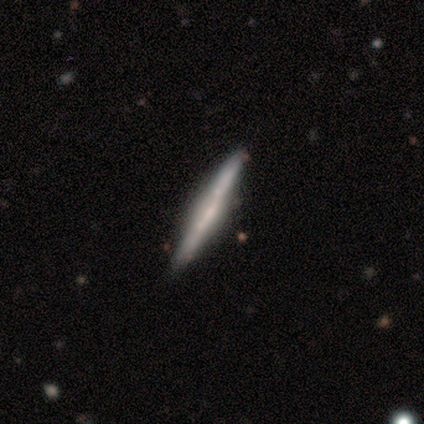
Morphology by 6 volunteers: featured or disk 83%, smooth 17%, star or artifact 0%. Down the decision tree: edge-on disk — yes (100%); edge-on bulge — boxy (40%, tied with none); merging — none (100%).